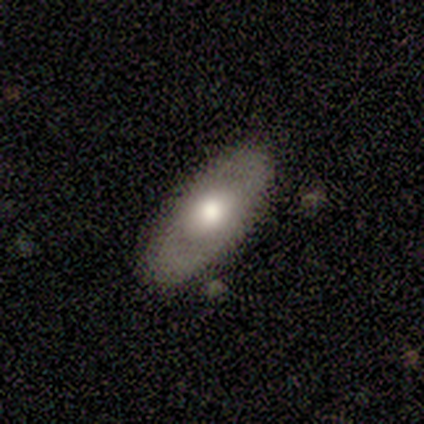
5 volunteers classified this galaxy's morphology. type=featured or disk (60%); edge-on=no (67%); bar=no (100%); spiral arms=yes (50%, tied with no); winding=tight (100%); arm count=2 (100%); bulge=large (50%, tied with small); merging=none (100%).